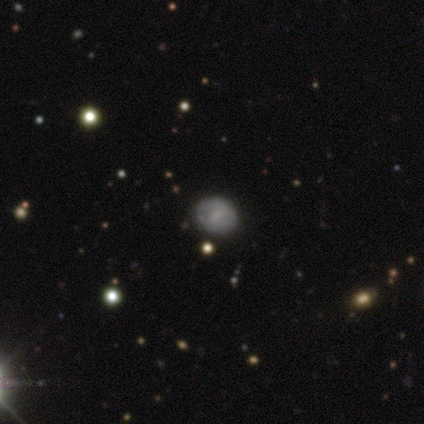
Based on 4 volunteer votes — Volunteers were most divided on "merging": minor disturbance: 50%, none: 25%, major disturbance: 25%, merger: 0%. More confident: smooth or featured — smooth (75%); how rounded — in between (67%).